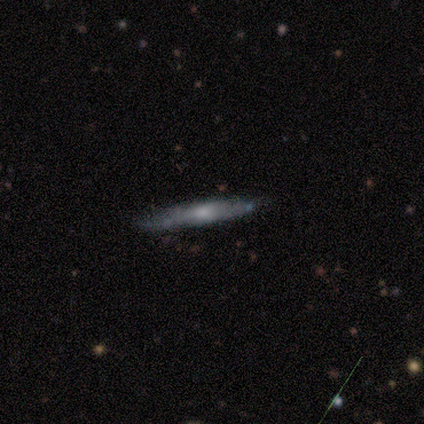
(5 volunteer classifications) Smooth or featured? 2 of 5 (40%, tied with featured or disk) said smooth. How rounded? 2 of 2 (100%) said cigar-shaped. Merging? 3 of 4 (75%) said none.